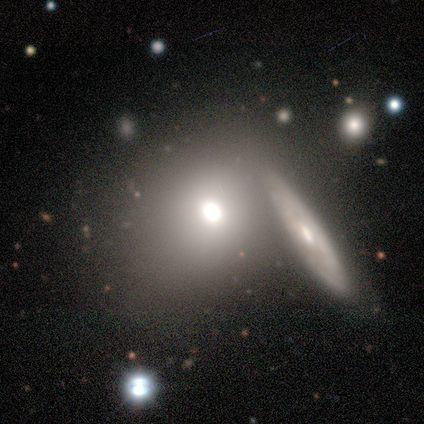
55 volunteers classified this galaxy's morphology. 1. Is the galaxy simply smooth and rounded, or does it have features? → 60% smooth, 27% featured or disk, 13% star or artifact.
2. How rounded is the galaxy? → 61% round, 39% in between, 0% cigar-shaped.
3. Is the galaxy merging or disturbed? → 48% none, 27% merger, 12% minor disturbance, 12% major disturbance.